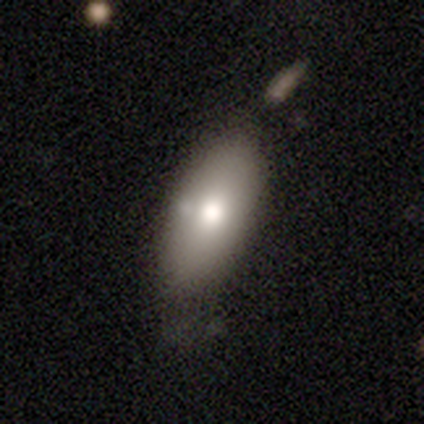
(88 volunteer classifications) This is likely a smooth galaxy (74%). How rounded: clearly in between (85%). Merging: possibly none (59%).